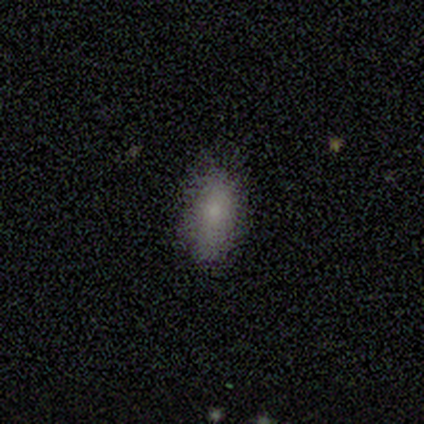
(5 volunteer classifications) Morphology: type=smooth (80%); roundness=in between (100%); merging=none (100%).